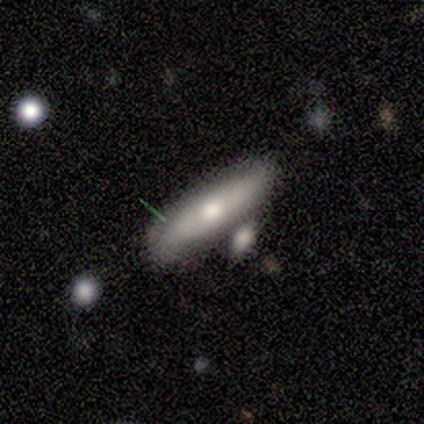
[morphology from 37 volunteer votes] Smooth or featured? smooth (65%)
How rounded? in between (50%)
Merging? none (33%, tied with minor disturbance)